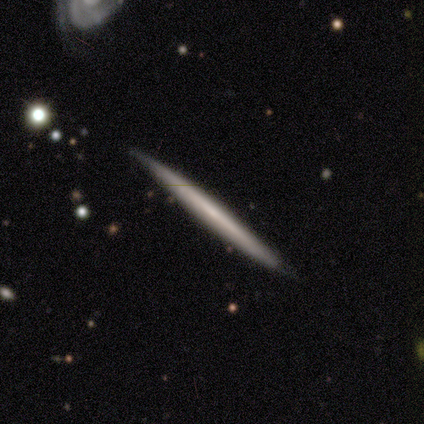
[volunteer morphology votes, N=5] Smooth or featured?
  - featured or disk: 60% *
  - smooth: 40%
  - star or artifact: 0%
Edge-on disk?
  - yes: 100% *
  - no: 0%
Edge-on bulge?
  - none: 67% *
  - rounded: 33%
  - boxy: 0%
Merging?
  - none: 60% *
  - minor disturbance: 40%
  - major disturbance: 0%
  - merger: 0%